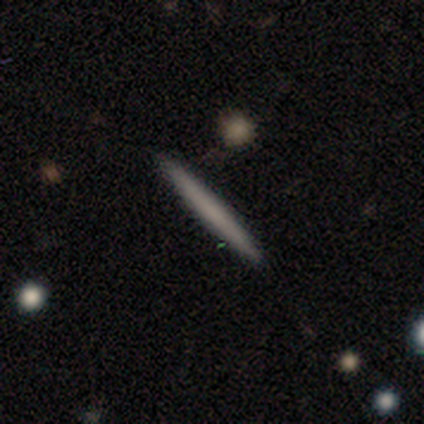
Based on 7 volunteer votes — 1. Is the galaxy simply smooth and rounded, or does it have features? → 71% smooth, 29% featured or disk, 0% star or artifact.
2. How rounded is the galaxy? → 100% cigar-shaped, 0% round, 0% in between.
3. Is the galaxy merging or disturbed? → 100% none, 0% minor disturbance, 0% major disturbance, 0% merger.